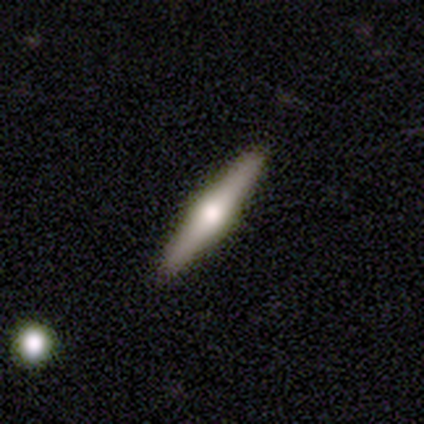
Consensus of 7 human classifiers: featured or disk 86%, star or artifact 14%, smooth 0%. Down the decision tree: edge-on disk — yes (100%); edge-on bulge — rounded (83%); merging — none (100%).